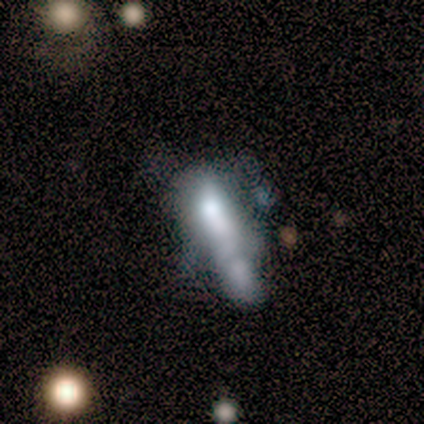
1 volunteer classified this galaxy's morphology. smooth-or-featured: star or artifact: 100% | smooth: 0% | featured or disk: 0%